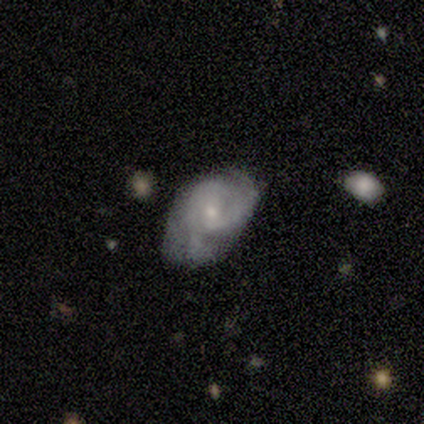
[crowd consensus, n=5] Smooth or featured? 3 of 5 (60%) said featured or disk. Edge-on disk? 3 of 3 (100%) said no. Bar? 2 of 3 (67%) said weak. Spiral arms? 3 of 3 (100%) said yes. Spiral winding? 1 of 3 (33%, tied with medium and loose) said tight. Spiral arm count? 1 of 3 (33%, tied with 2 and can't tell) said 1. Bulge size? 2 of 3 (67%) said small. Merging? 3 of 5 (60%) said minor disturbance.